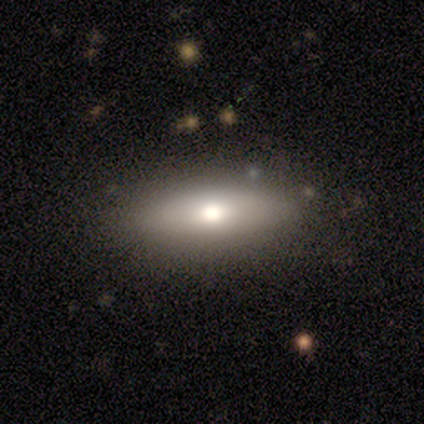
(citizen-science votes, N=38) Smooth or featured: smooth — 68% (featured or disk — 21%)
How rounded: in between — 58% (cigar-shaped — 42%)
Merging: none — 88% (minor disturbance — 12%)